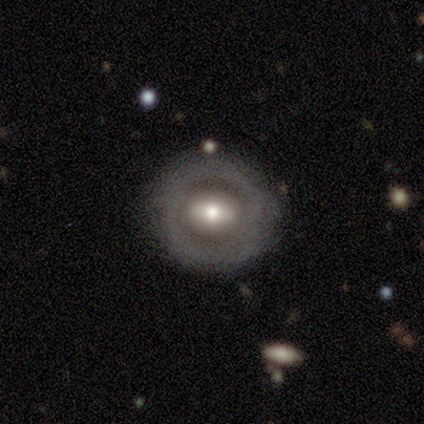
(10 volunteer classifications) Smooth or featured? featured or disk (60%)
Edge-on disk? no (100%)
Bar? no (50%)
Spiral arms? no (100%)
Bulge size? moderate (67%)
Merging? none (60%)